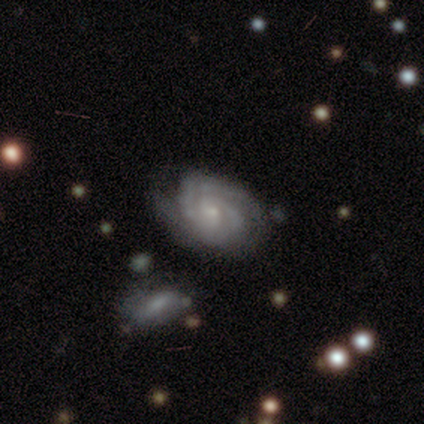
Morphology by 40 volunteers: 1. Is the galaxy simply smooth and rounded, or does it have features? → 95% featured or disk, 2% smooth, 2% star or artifact.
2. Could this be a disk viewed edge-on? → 100% no, 0% yes.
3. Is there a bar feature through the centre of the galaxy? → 71% no, 24% weak, 5% strong.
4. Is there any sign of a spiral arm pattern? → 100% yes, 0% no.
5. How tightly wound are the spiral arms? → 74% tight, 26% medium, 0% loose.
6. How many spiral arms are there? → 68% 2, 21% can't tell, 5% 3, 5% 4, 0% 1, 0% more than 4.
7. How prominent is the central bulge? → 76% small, 11% moderate, 11% none, 3% large, 0% dominant.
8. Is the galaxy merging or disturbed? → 41% none, 15% minor disturbance, 10% merger, 3% major disturbance.